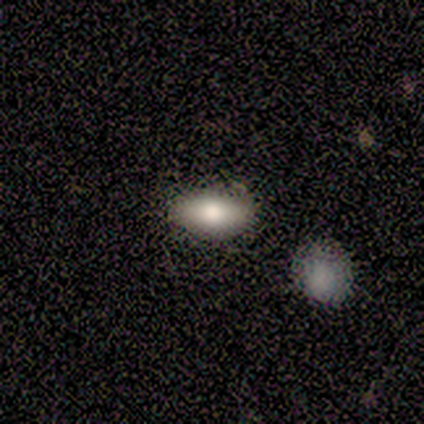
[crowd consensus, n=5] Q: Smooth or featured?
A: smooth (60%); runner-up: featured or disk (40%)
Q: How rounded?
A: in between (67%); runner-up: cigar-shaped (33%)
Q: Merging?
A: none (60%); runner-up: minor disturbance (40%)